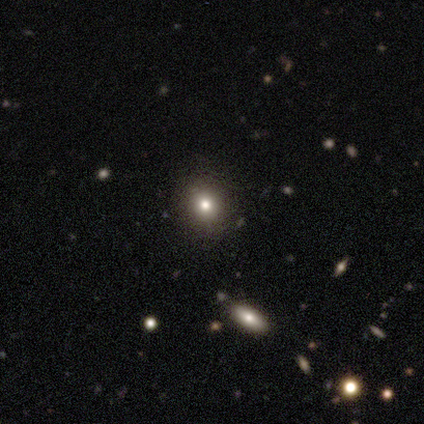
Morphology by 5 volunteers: smooth_or_featured: smooth (p=0.80) [alt: featured or disk p=0.20]
how_rounded: round (p=1.00)
merging: none (p=1.00)